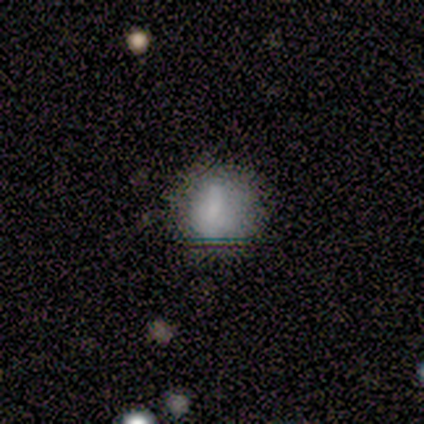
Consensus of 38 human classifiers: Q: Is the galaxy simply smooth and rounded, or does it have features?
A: smooth — 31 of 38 (82%).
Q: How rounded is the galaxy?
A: round — 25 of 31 (81%).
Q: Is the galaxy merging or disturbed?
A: none — 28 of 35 (80%).